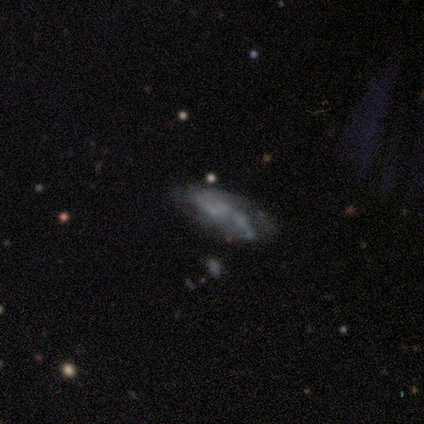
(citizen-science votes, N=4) smooth 50%, featured or disk 25%, star or artifact 25%. Down the decision tree: how rounded — in between (100%); merging — none (33%, tied with minor disturbance and major disturbance).